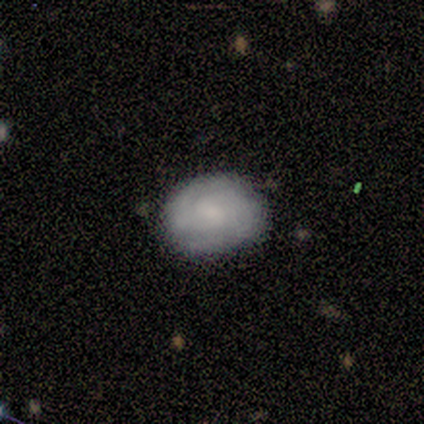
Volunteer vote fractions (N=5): This appears to be a smooth galaxy with no disk features (60%) that is round (67%). Merging: none (60%).